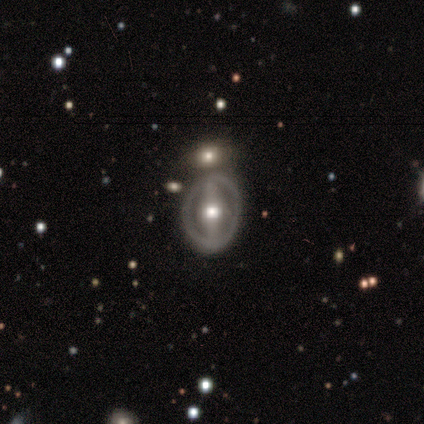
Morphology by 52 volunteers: Q: Smooth or featured?
A: featured or disk (83%); runner-up: smooth (15%)
Q: Edge-on disk?
A: no (95%); runner-up: yes (5%)
Q: Bar?
A: strong (78%); runner-up: no (15%)
Q: Spiral arms?
A: no (71%); runner-up: yes (29%)
Q: Bulge size?
A: moderate (83%); runner-up: large (10%)
Q: Merging?
A: none (69%); runner-up: minor disturbance (14%)